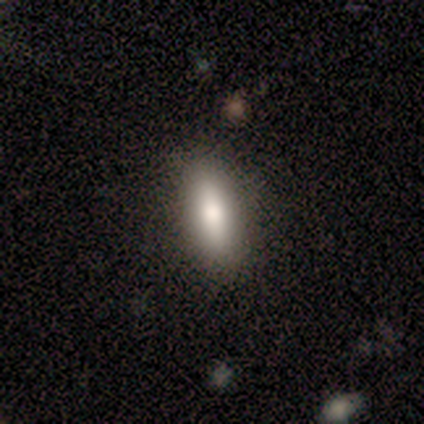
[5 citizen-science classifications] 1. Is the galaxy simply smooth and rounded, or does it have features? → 80% smooth, 20% star or artifact, 0% featured or disk.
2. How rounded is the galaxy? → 75% in between, 25% cigar-shaped, 0% round.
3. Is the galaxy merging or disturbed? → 75% none, 25% minor disturbance, 0% major disturbance, 0% merger.